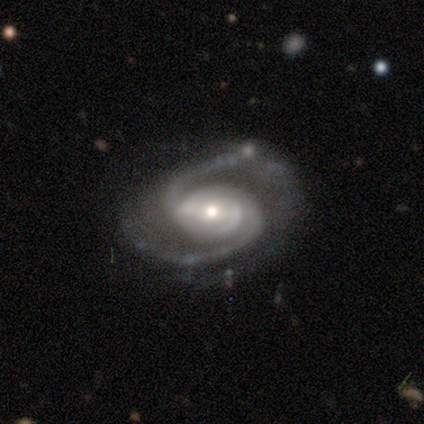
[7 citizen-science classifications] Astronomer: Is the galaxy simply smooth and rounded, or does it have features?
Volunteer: featured or disk — 86%.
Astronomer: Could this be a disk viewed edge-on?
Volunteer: no — 100%.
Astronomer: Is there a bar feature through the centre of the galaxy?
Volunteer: strong — 50% (runner-up: no, 33%).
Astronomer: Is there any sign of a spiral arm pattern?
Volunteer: yes — 100%.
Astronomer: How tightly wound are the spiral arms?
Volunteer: medium — 83%.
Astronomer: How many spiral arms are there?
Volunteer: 2 — 83%.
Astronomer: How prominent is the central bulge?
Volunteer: small — 83%.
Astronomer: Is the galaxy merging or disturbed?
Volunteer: none — 50% (runner-up: minor disturbance, 33%).